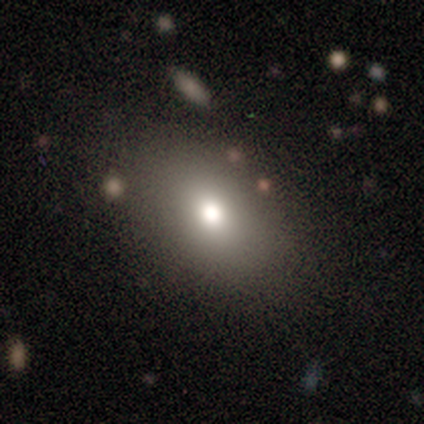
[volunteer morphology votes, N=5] A smooth galaxy with no disk features (100%) that is in between round and cigar-shaped (80%).

Vote fractions:
- Smooth or featured? smooth: 100% / featured or disk: 0% / star or artifact: 0%
- How rounded? in between: 80% / cigar-shaped: 20% / round: 0%
- Merging? none: 80% / major disturbance: 20% / minor disturbance: 0% / merger: 0%